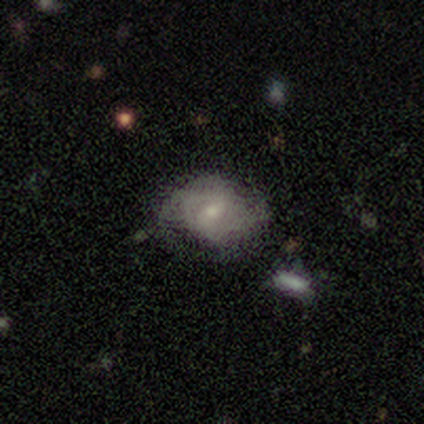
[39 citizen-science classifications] Smooth or featured: featured or disk — 51% (smooth — 46%)
Edge-on disk: no — 100%
Bar: weak — 70% (no — 30%)
Spiral arms: yes — 70% (no — 30%)
Spiral winding: tight — 57% (medium — 29%)
Spiral arm count: can't tell — 64% (2 — 29%)
Bulge size: small — 60% (moderate — 40%)
Merging: none — 47% (minor disturbance — 34%)